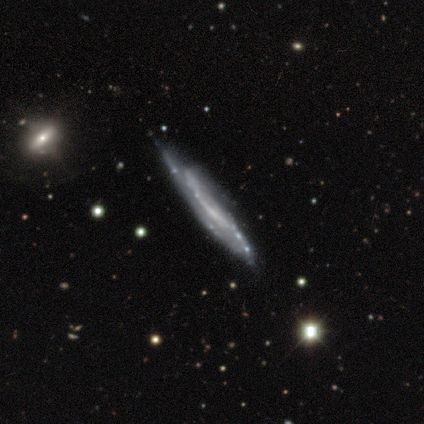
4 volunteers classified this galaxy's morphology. smooth-or-featured: smooth: 50% | featured or disk: 25% | star or artifact: 25%
  how-rounded: cigar-shaped: 100% | round: 0% | in between: 0%
  merging: minor disturbance: 67% | none: 33% | major disturbance: 0% | merger: 0%